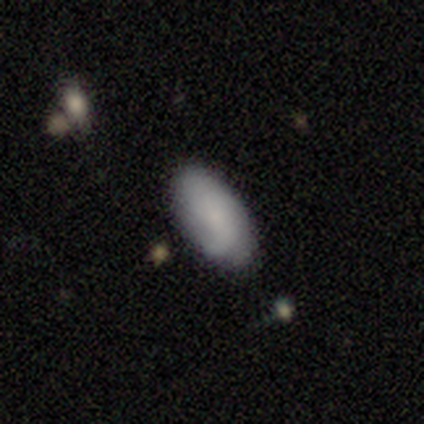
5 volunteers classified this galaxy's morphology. type=smooth (80%); roundness=in between (100%); merging=none (60%).